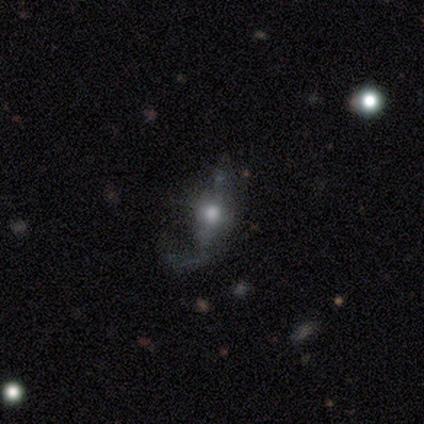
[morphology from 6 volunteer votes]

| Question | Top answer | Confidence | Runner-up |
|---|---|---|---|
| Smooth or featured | featured or disk | 67% | smooth (33%) |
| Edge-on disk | yes | 50% | tied: no (50%) |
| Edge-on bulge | rounded | 100% | — |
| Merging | none | 50% | tied: major disturbance (50%) |